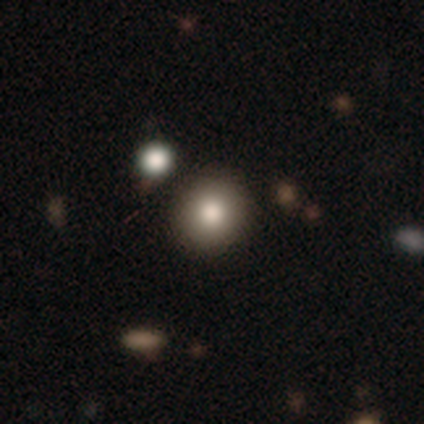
smooth_or_featured: smooth (p=0.89) [alt: star or artifact p=0.11]
how_rounded: round (p=0.91) [alt: in between p=0.09]
merging: none (p=0.85) [alt: minor disturbance p=0.06]